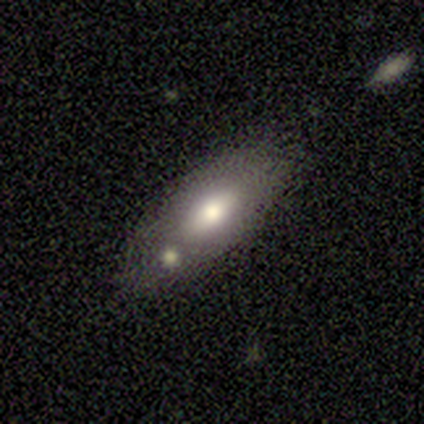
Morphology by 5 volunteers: smooth-or-featured: featured or disk: 100% | smooth: 0% | star or artifact: 0%
  disk-edge-on: no: 80% | yes: 20%
    bar: no: 100% | strong: 0% | weak: 0%
    has-spiral-arms: no: 100% | yes: 0%
    bulge-size: moderate: 75% | small: 25% | dominant: 0% | large: 0% | none: 0%
  merging: none: 40% (tied) | merger: 40% (tied) | minor disturbance: 20% | major disturbance: 0%